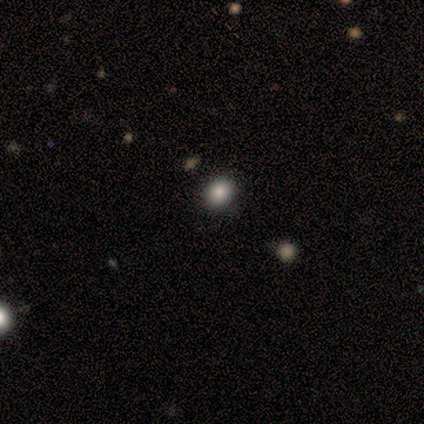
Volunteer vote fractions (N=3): Morphology: type=smooth (67%); roundness=in between (100%); merging=none (100%).